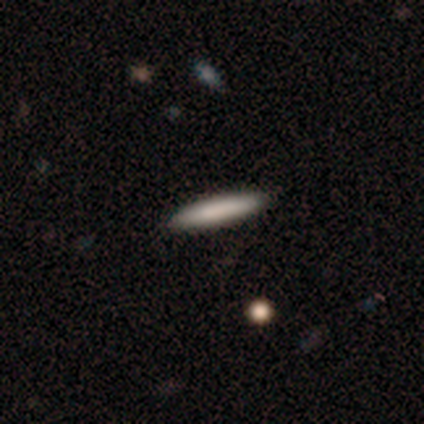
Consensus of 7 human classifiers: This appears to be a smooth galaxy with no disk features (86%) that is cigar-shaped (100%). Merging: none (86%).